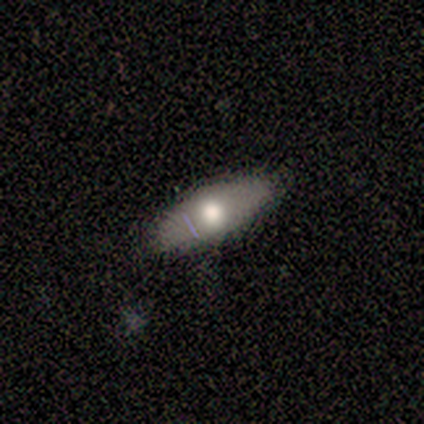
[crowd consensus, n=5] Overall: smooth (80%). How rounded: in between (75%). Merging: none (100%).